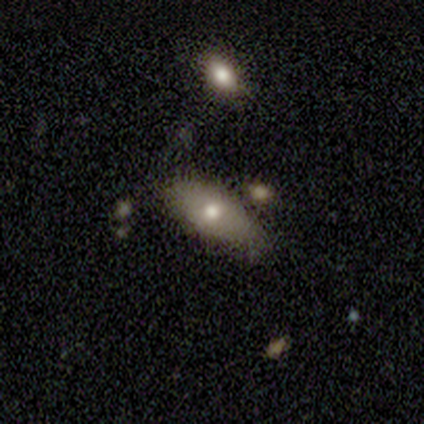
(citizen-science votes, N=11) A smooth galaxy with no disk features (55%) that is in between round and cigar-shaped (83%). Merging: none (70%).